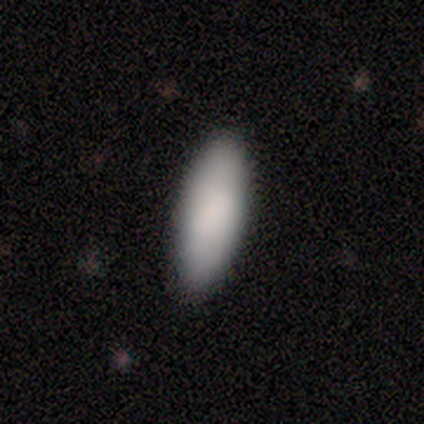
Q: Smooth or featured?
A: smooth (50%); runner-up: featured or disk (25%)
Q: How rounded?
A: in between (100%)
Q: Merging?
A: none (67%); runner-up: minor disturbance (33%)